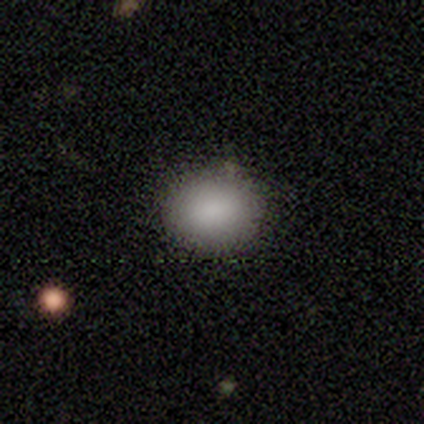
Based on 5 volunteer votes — Smooth or featured? star or artifact (60%)